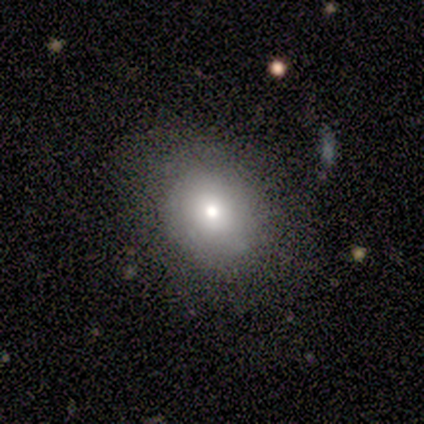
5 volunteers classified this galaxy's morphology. Smooth or featured?
  - smooth: 80% *
  - star or artifact: 20%
  - featured or disk: 0%
How rounded?
  - in between: 75% *
  - round: 25%
  - cigar-shaped: 0%
Merging?
  - none: 75% *
  - minor disturbance: 25%
  - major disturbance: 0%
  - merger: 0%